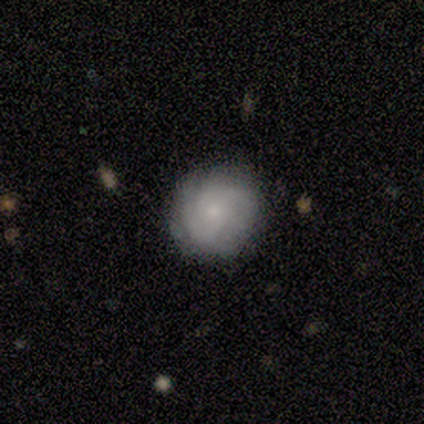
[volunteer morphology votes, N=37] Q: Smooth or featured?
A: featured or disk (54%); runner-up: smooth (43%)
Q: Edge-on disk?
A: no (100%)
Q: Bar?
A: no (90%); runner-up: weak (10%)
Q: Spiral arms?
A: yes (90%); runner-up: no (10%)
Q: Spiral winding?
A: tight (67%); runner-up: medium (28%)
Q: Spiral arm count?
A: can't tell (72%); runner-up: 3 (17%)
Q: Bulge size?
A: small (80%); runner-up: moderate (20%)
Q: Merging?
A: none (81%); runner-up: minor disturbance (19%)